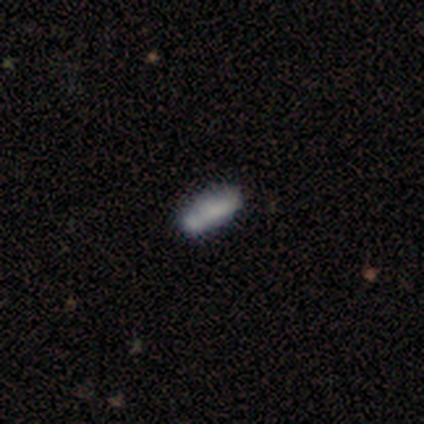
smooth-or-featured: smooth: 83% | star or artifact: 17% | featured or disk: 0%
  how-rounded: in between: 80% | cigar-shaped: 20% | round: 0%
  merging: none: 40% (tied) | merger: 40% (tied) | minor disturbance: 20% | major disturbance: 0%